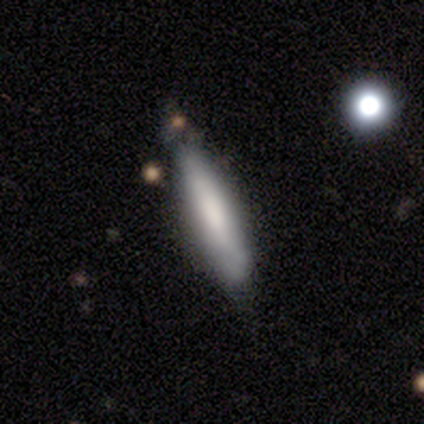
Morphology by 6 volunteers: Smooth or featured? 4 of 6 (67%) said smooth. How rounded? 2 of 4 (50%, tied with cigar-shaped) said in between. Merging? 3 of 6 (50%, tied with minor disturbance) said none.